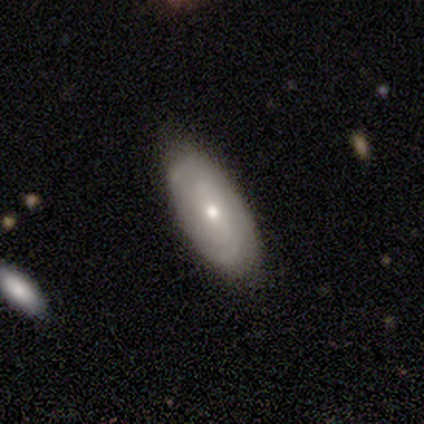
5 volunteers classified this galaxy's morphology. type=featured or disk (60%); edge-on=no (100%); bar=no (67%); spiral arms=yes (100%); winding=tight (67%); arm count=can't tell (67%); bulge=small (67%); merging=none (60%).